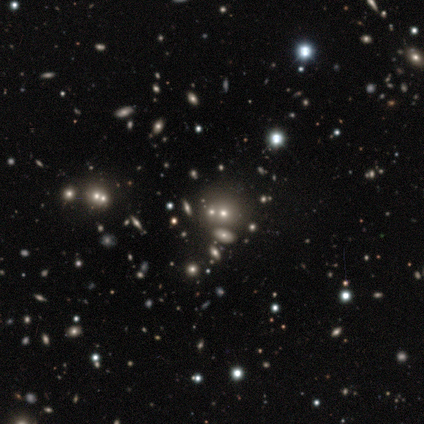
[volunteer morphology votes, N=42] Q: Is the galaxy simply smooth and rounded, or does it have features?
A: star or artifact — 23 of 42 (55%).